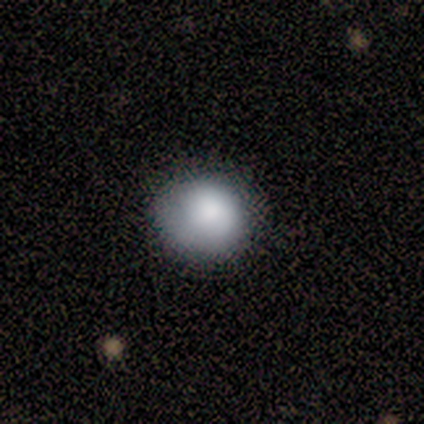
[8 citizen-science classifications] Smooth or featured?
  - smooth: 88% *
  - featured or disk: 12%
  - star or artifact: 0%
How rounded?
  - round: 86% *
  - in between: 14%
  - cigar-shaped: 0%
Merging?
  - none: 50% * (tied)
  - minor disturbance: 50% * (tied)
  - major disturbance: 0%
  - merger: 0%